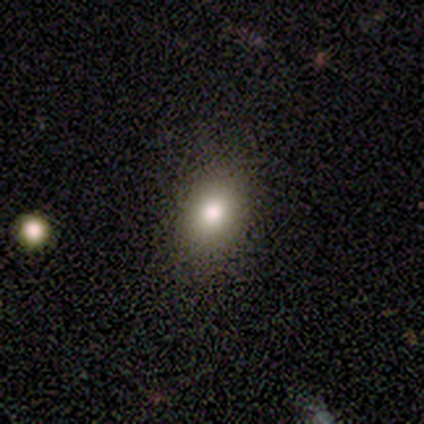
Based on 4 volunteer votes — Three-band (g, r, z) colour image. It shows a smooth galaxy with no disk features (75%) that is in between round and cigar-shaped (100%). Merging: none (100%).